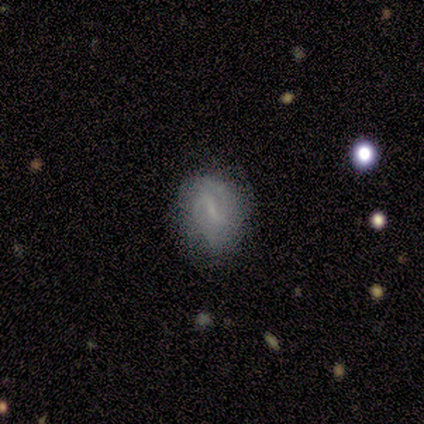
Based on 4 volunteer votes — Volunteers were most divided on "smooth or featured" (2-way tie): smooth: 50%, featured or disk: 50%, star or artifact: 0%. More confident: how rounded — in between (100%); merging — none (75%).